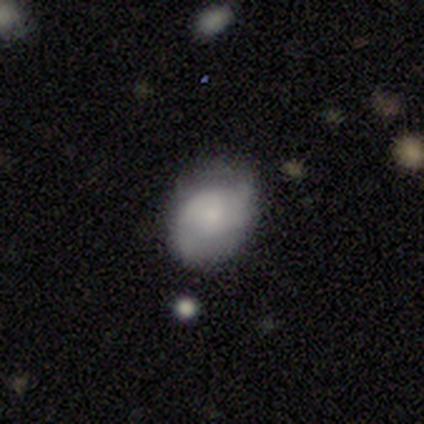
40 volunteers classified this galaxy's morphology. Smooth or featured? 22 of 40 (55%) said featured or disk. Edge-on disk? 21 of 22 (95%) said no. Bar? 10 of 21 (48%) said no. Spiral arms? 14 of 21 (67%) said yes. Spiral winding? 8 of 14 (57%) said medium. Spiral arm count? 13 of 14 (93%) said 2. Bulge size? 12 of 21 (57%) said small. Merging? 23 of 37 (62%) said none.